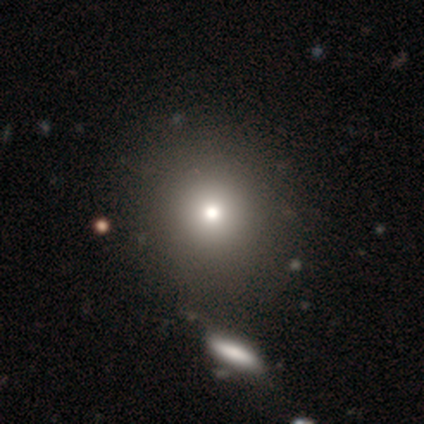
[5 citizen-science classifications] A smooth galaxy with no disk features (80%) that is round (50%).

Vote fractions:
- Smooth or featured? smooth: 80% / star or artifact: 20% / featured or disk: 0%
- How rounded? round: 50% / in between: 25% / cigar-shaped: 25%
- Merging? none: 75% / minor disturbance: 25% / major disturbance: 0% / merger: 0%